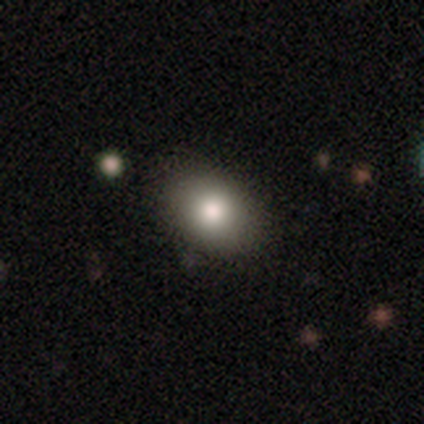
Volunteers were most divided on "merging": none: 42%, merger: 7%, minor disturbance: 5%, major disturbance: 0%. More confident: smooth or featured — smooth (80%); how rounded — in between (73%).